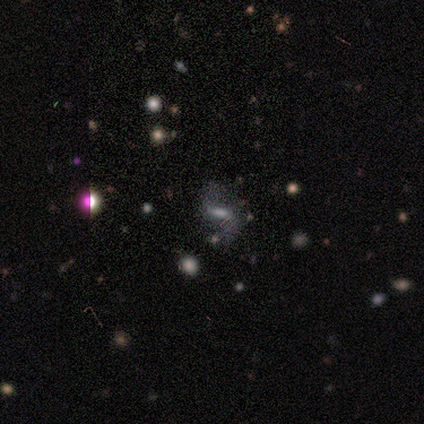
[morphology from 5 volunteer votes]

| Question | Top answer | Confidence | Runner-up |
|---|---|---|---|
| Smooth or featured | smooth | 60% | featured or disk (20%) |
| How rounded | in between | 100% | — |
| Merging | none | 50% | minor disturbance (25%) |